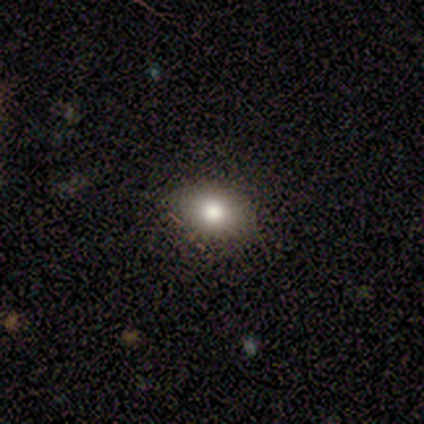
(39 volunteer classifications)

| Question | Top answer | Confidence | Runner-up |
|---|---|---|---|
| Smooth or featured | smooth | 69% | star or artifact (28%) |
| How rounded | in between | 74% | round (26%) |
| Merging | none | 82% | minor disturbance (14%) |